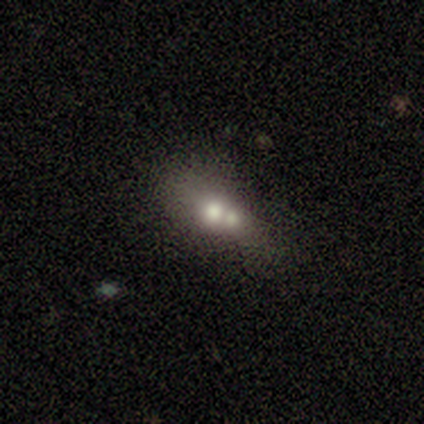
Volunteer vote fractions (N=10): This is clearly a smooth galaxy (80%). How rounded: likely in between (62%). Merging: likely merger (67%).